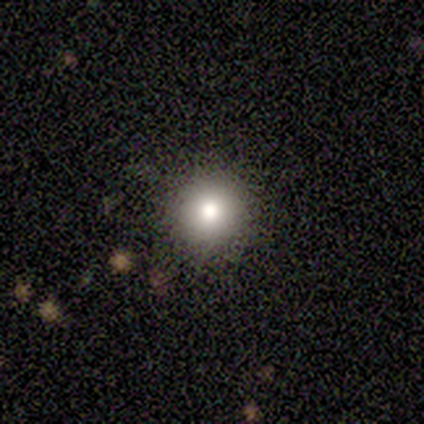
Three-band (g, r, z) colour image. It shows a smooth galaxy with no disk features (60%) that is round (100%). Merging: none (100%).